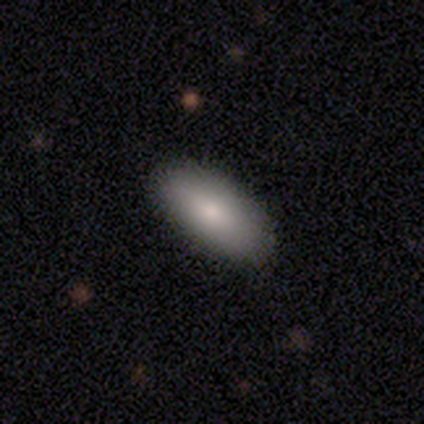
smooth_or_featured: smooth (p=0.90) [alt: featured or disk p=0.10]
how_rounded: in between (p=0.86) [alt: cigar-shaped p=0.11]
merging: none (p=0.95) [alt: minor disturbance p=0.05]